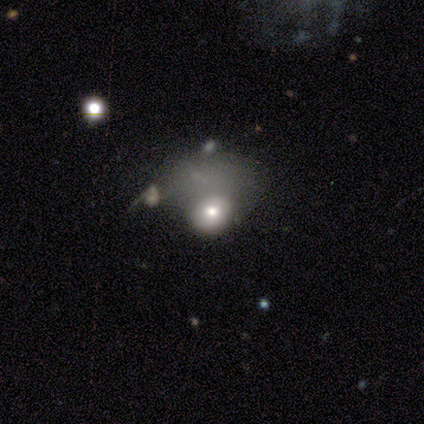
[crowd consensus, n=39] Volunteers were most divided on "how rounded": round: 52%, in between: 48%, cigar-shaped: 0%. More confident: smooth or featured — smooth (54%); merging — major disturbance (53%).